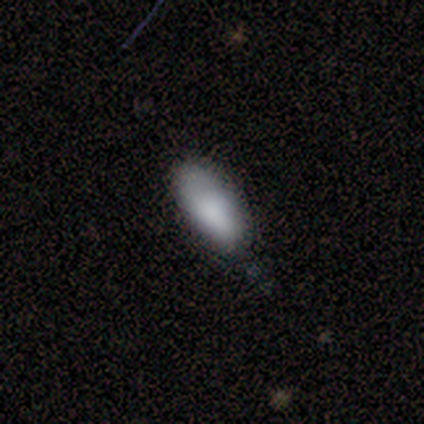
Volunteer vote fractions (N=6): A smooth galaxy with no disk features (100%) that is in between round and cigar-shaped (100%).

Vote fractions:
- Smooth or featured? smooth: 100% / featured or disk: 0% / star or artifact: 0%
- How rounded? in between: 100% / round: 0% / cigar-shaped: 0%
- Merging? none: 67% / minor disturbance: 33% / major disturbance: 0% / merger: 0%